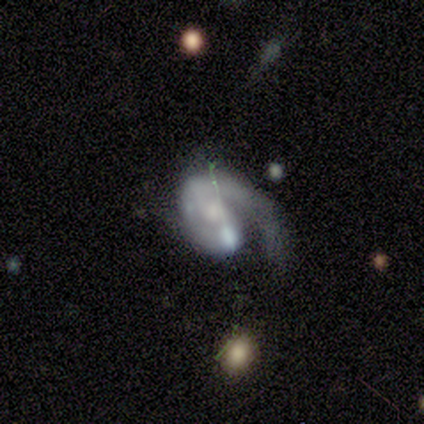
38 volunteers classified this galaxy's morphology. A featured or disk galaxy (84%) with no bar (47%), 1 (66%) medium (52%) spiral arms (91%) and a moderate central bulge (47%).

Vote fractions:
- Smooth or featured? featured or disk: 84% / smooth: 11% / star or artifact: 5%
- Edge-on disk? no: 100% / yes: 0%
- Bar? no: 47% / weak: 44% / strong: 9%
- Spiral arms? yes: 91% / no: 9%
- Spiral winding? medium: 52% / loose: 28% / tight: 21%
- Spiral arm count? 1: 66% / 2: 21% / can't tell: 10% / 3: 3% / 4: 0% / more than 4: 0%
- Bulge size? moderate: 47% / small: 34% / large: 9% / none: 9% / dominant: 0%
- Merging? major disturbance: 56% / none: 17% / minor disturbance: 14% / merger: 14%